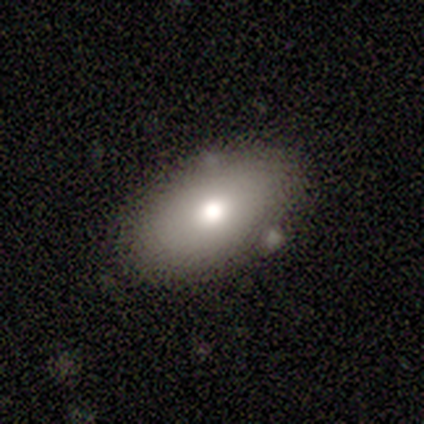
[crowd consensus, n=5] A featured or disk galaxy (60%) with no bar (100%), no spiral arms (100%) and a moderate central bulge (50%, tied with small).

Vote fractions:
- Smooth or featured? featured or disk: 60% / smooth: 40% / star or artifact: 0%
- Edge-on disk? no: 67% / yes: 33%
- Bar? no: 100% / strong: 0% / weak: 0%
- Spiral arms? no: 100% / yes: 0%
- Bulge size? moderate: 50% (tied) / small: 50% (tied) / dominant: 0% / large: 0% / none: 0%
- Merging? none: 60% / minor disturbance: 20% / major disturbance: 20% / merger: 0%